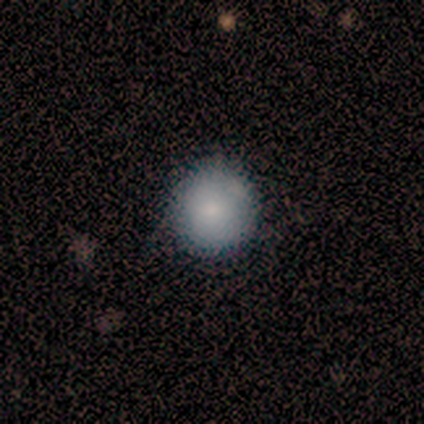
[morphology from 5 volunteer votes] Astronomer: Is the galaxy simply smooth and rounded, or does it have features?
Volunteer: smooth — 100%.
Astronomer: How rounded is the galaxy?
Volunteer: round — 100%.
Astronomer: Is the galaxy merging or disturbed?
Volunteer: none — 100%.